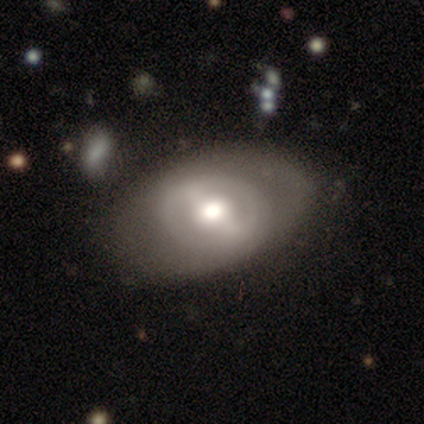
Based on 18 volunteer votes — This appears to be a featured or disk galaxy (61%) with a weak bar (45%), no spiral arms (64%) and a moderate central bulge (73%). Merging: none (28%).